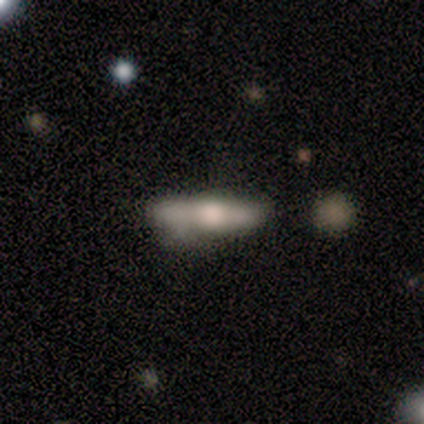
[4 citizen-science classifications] This is likely a smooth galaxy (75%). How rounded: likely in between (67%). Merging: possibly minor disturbance (50%).